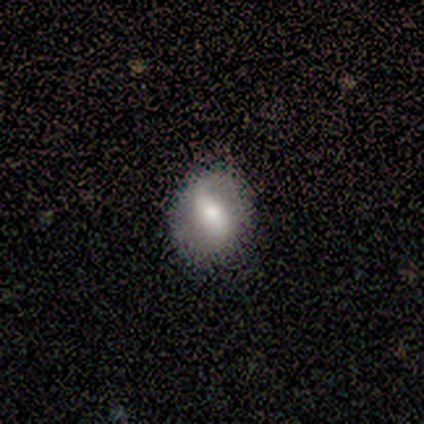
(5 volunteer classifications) smooth-or-featured: smooth: 60% | featured or disk: 40% | star or artifact: 0%
  how-rounded: in between: 100% | round: 0% | cigar-shaped: 0%
  merging: major disturbance: 60% | none: 20% | minor disturbance: 20% | merger: 0%